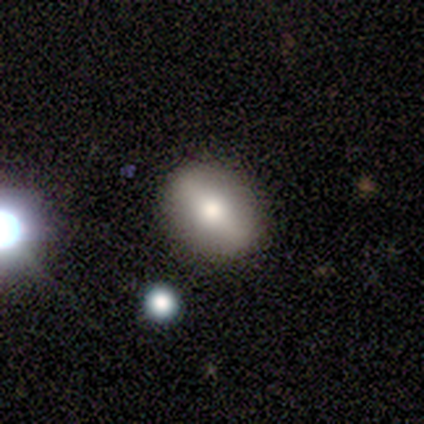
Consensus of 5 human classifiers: Smooth or featured? smooth (60%)
How rounded? in between (67%)
Merging? none (100%)